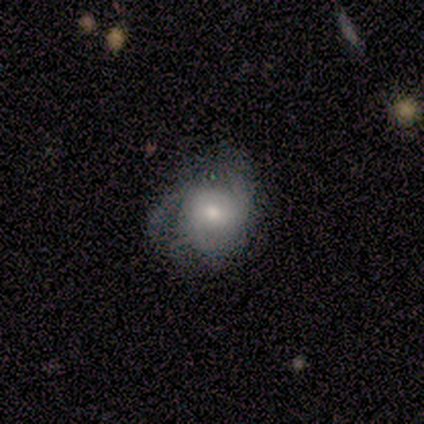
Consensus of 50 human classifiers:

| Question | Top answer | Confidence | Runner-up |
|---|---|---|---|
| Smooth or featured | featured or disk | 60% | smooth (36%) |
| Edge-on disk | no | 97% | yes (3%) |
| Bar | no | 76% | weak (24%) |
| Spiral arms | yes | 86% | no (14%) |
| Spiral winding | tight | 48% | loose (28%) |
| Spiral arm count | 2 | 40% | tied: 3 (40%) |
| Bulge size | moderate | 62% | small (28%) |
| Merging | none | 52% | minor disturbance (33%) |